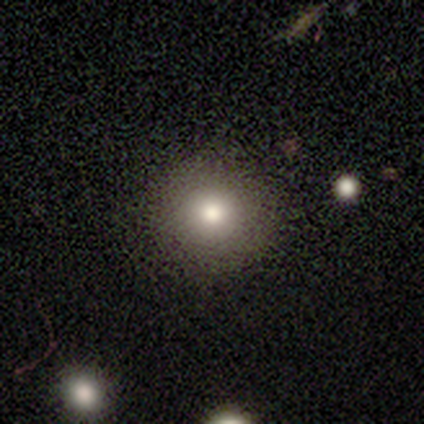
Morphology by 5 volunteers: smooth_or_featured: smooth (p=0.80) [alt: featured or disk p=0.20]
how_rounded: round (p=1.00)
merging: none (p=1.00)